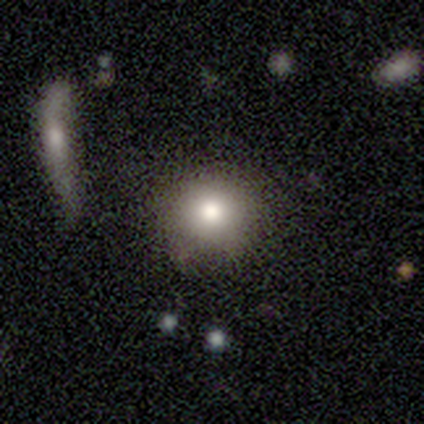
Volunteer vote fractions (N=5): Smooth or featured? smooth (100%)
How rounded? round (80%)
Merging? none (60%)